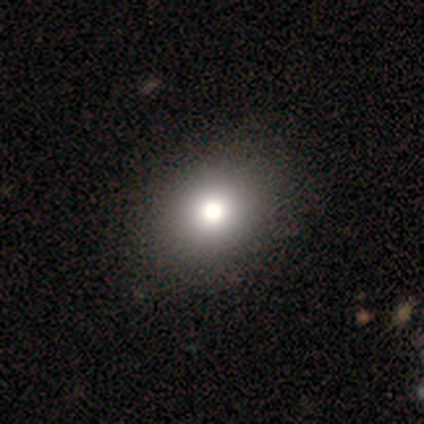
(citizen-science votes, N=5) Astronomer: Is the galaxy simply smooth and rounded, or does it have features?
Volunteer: smooth — 80%.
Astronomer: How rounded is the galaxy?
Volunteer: round — 50%, tied with in between at 50%.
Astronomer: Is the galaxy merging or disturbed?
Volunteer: none — 100%.